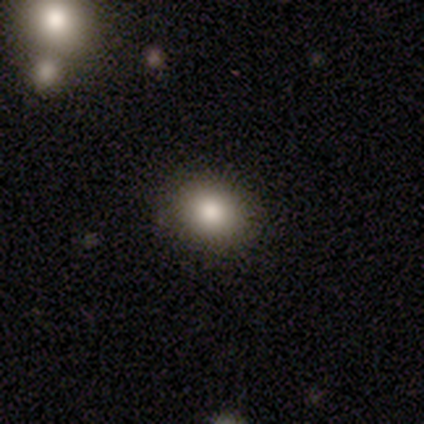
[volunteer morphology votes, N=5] Smooth or featured? smooth (80%)
How rounded? round (50%, tied with in between)
Merging? none (100%)